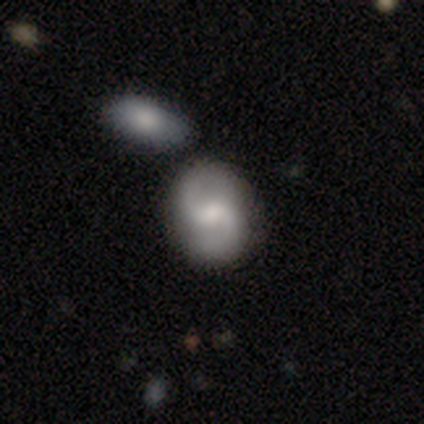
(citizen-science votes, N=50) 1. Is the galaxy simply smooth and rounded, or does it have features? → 64% featured or disk, 34% smooth, 2% star or artifact.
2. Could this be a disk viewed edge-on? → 100% no, 0% yes.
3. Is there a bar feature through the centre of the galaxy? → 59% weak, 25% no, 16% strong.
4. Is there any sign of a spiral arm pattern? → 78% yes, 22% no.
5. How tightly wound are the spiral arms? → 56% medium, 40% loose, 4% tight.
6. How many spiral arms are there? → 92% 2, 4% 3, 4% can't tell, 0% 1, 0% 4, 0% more than 4.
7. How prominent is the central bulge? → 50% moderate, 34% small, 12% none, 3% large, 0% dominant.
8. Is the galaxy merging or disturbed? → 63% none, 22% merger, 12% minor disturbance, 2% major disturbance.